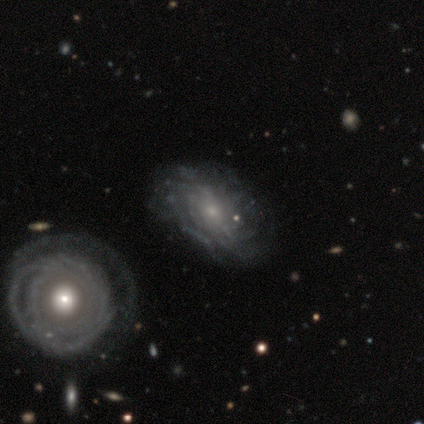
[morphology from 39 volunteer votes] A featured or disk galaxy (95%) with no bar (80%), tight (57%) spiral arms (86%) and a small central bulge (71%).

Vote fractions:
- Smooth or featured? featured or disk: 95% / smooth: 3% / star or artifact: 3%
- Edge-on disk? no: 95% / yes: 5%
- Bar? no: 80% / weak: 17% / strong: 3%
- Spiral arms? yes: 86% / no: 14%
- Spiral winding? tight: 57% / medium: 27% / loose: 17%
- Spiral arm count? can't tell: 77% / more than 4: 10% / 4: 7% / 1: 3% / 3: 3% / 2: 0%
- Bulge size? small: 71% / moderate: 26% / none: 3% / dominant: 0% / large: 0%
- Merging? none: 32% / minor disturbance: 26% / major disturbance: 11% / merger: 11%